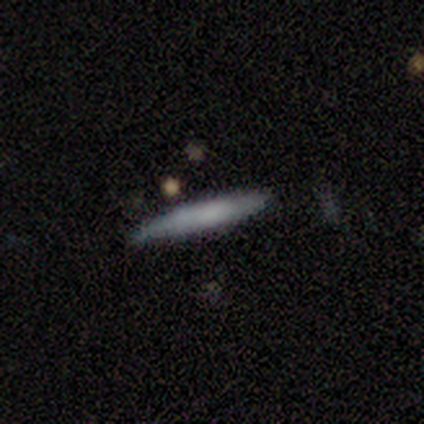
This is clearly a smooth galaxy (80%). How rounded: likely cigar-shaped (75%). Merging: likely none (60%).